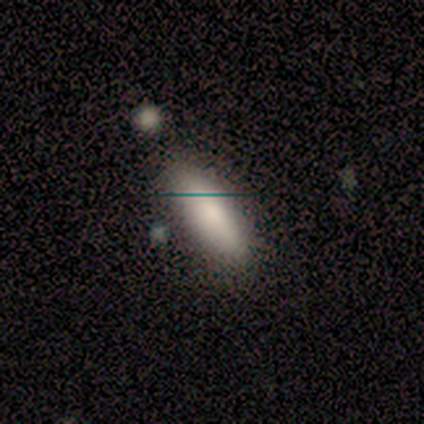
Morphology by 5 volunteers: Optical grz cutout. It shows a smooth galaxy with no disk features (100%) that is in between round and cigar-shaped (100%). Merging: none (100%).